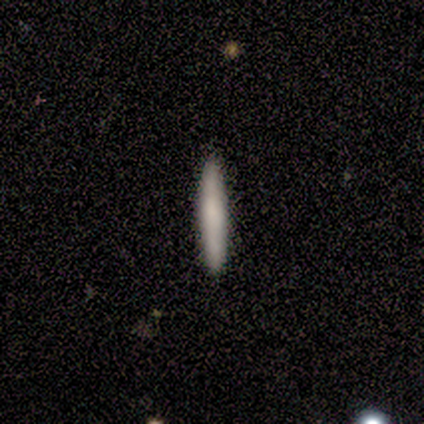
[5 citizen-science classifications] smooth-or-featured: smooth: 100% | featured or disk: 0% | star or artifact: 0%
  how-rounded: cigar-shaped: 100% | round: 0% | in between: 0%
  merging: none: 100% | minor disturbance: 0% | major disturbance: 0% | merger: 0%